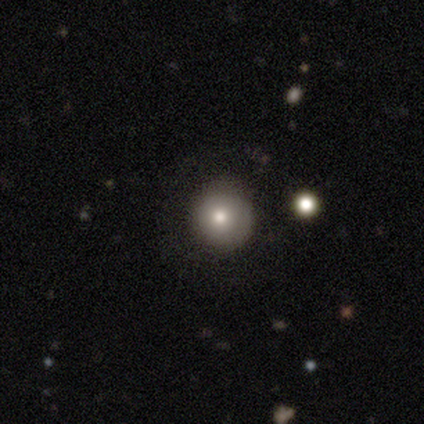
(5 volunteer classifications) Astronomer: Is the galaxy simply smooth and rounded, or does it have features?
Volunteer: smooth — 80%.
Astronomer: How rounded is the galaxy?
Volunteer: round — 100%.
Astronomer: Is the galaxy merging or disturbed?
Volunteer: none — 80%.